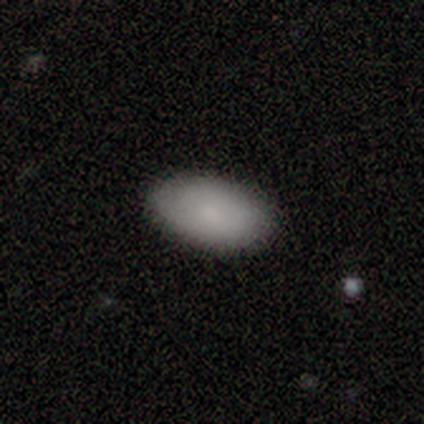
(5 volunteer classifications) smooth_or_featured: smooth (p=1.00)
how_rounded: in between (p=1.00)
merging: none (p=0.80) [alt: minor disturbance p=0.20]